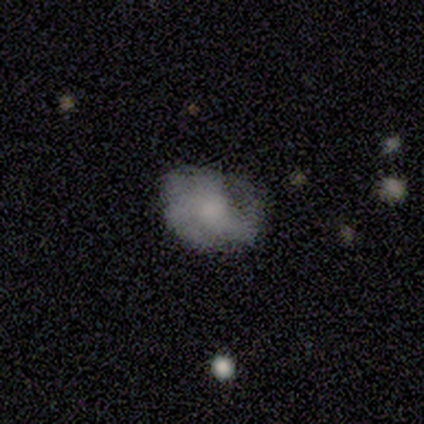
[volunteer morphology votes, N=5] smooth_or_featured: smooth (p=0.60) [alt: featured or disk p=0.40]
how_rounded: round (p=0.67) [alt: in between p=0.33]
merging: none (p=0.60) [alt: minor disturbance p=0.20]